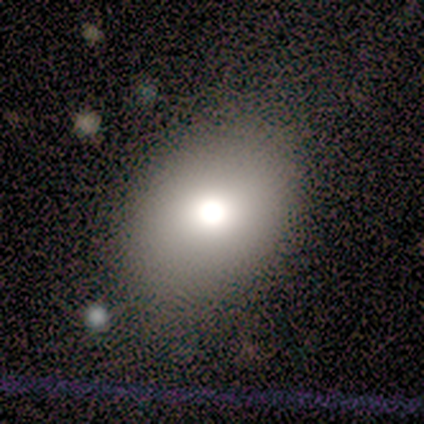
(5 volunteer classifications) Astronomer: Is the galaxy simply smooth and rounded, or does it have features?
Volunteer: smooth — 60%.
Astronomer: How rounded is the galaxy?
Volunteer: in between — 100%.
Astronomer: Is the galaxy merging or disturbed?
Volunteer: none — 50%.